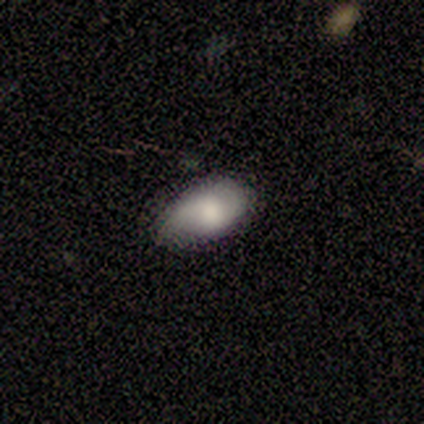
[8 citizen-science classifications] A smooth galaxy with no disk features (62%) that is in between round and cigar-shaped (80%).

Vote fractions:
- Smooth or featured? smooth: 62% / star or artifact: 25% / featured or disk: 12%
- How rounded? in between: 80% / round: 20% / cigar-shaped: 0%
- Merging? none: 50% (tied) / minor disturbance: 50% (tied) / major disturbance: 0% / merger: 0%